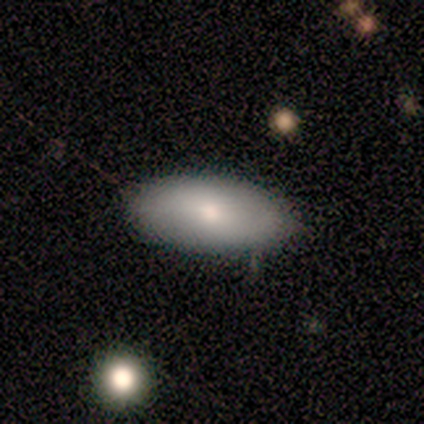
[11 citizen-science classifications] Q: Smooth or featured?
A: smooth (91%); runner-up: featured or disk (9%)
Q: How rounded?
A: in between (100%)
Q: Merging?
A: none (91%); runner-up: minor disturbance (9%)